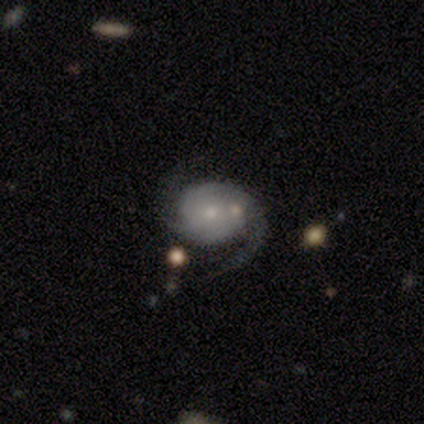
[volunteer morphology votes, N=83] Smooth or featured: featured or disk — 80% (smooth — 13%)
Edge-on disk: no — 100%
Bar: no — 80% (weak — 15%)
Spiral arms: yes — 94% (no — 6%)
Spiral winding: tight — 42% (medium — 39%)
Spiral arm count: 2 — 85% (can't tell — 6%)
Bulge size: small — 70% (moderate — 23%)
Merging: none — 70% (minor disturbance — 17%)